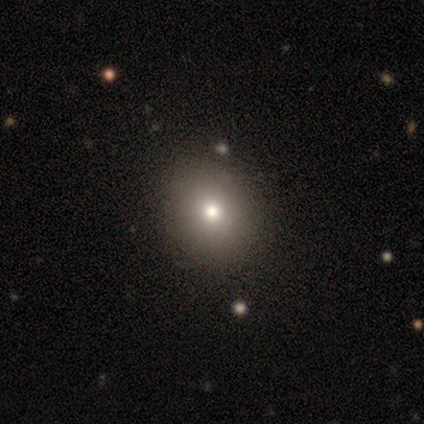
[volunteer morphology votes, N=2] Consensus on every question: smooth or featured — smooth (100%); how rounded — round (100%); merging — none (100%).